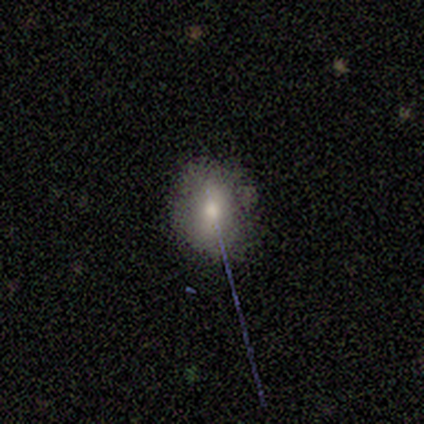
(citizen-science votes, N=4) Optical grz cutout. It shows a smooth galaxy with no disk features (50%, tied with featured or disk) that is in between round and cigar-shaped (100%). Merging: none (75%).